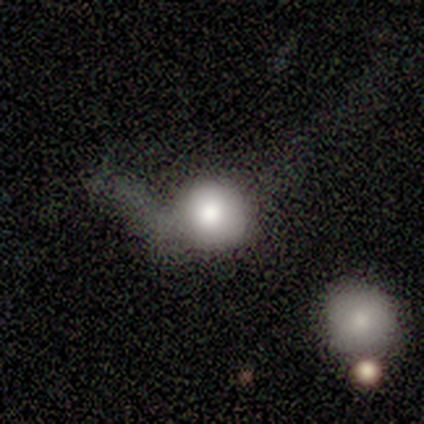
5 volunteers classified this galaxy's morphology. This appears to be a smooth galaxy with no disk features (60%) that is round (100%). Merging: minor disturbance (40%).